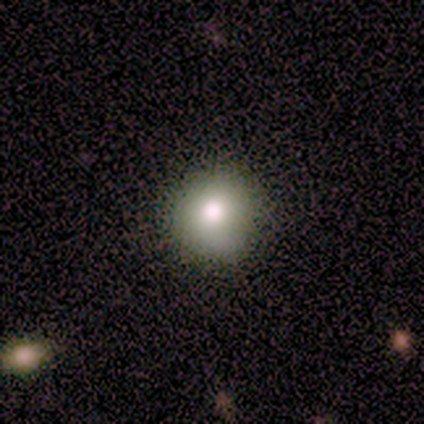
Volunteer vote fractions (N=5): smooth 80%, featured or disk 20%, star or artifact 0%. Down the decision tree: how rounded — round (100%); merging — none (100%).